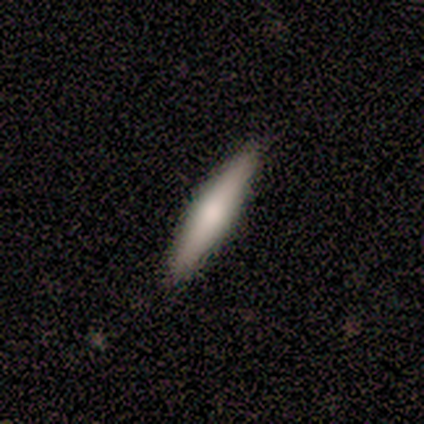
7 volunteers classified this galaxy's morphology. Smooth or featured?
  - smooth: 100% *
  - featured or disk: 0%
  - star or artifact: 0%
How rounded?
  - cigar-shaped: 86% *
  - in between: 14%
  - round: 0%
Merging?
  - none: 86% *
  - minor disturbance: 14%
  - major disturbance: 0%
  - merger: 0%